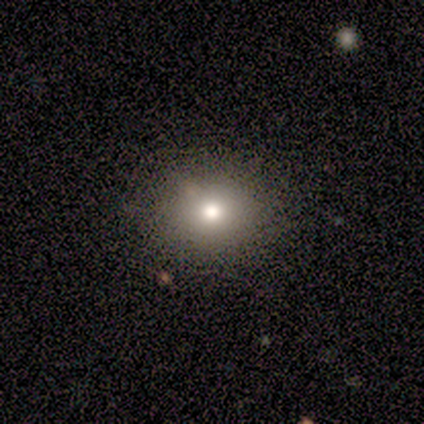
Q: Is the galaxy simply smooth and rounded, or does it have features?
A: smooth — 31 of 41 (76%).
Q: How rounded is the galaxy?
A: round — 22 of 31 (71%).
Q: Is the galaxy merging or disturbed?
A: none — 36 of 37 (97%).